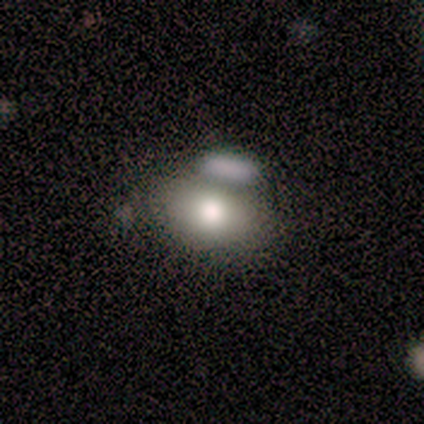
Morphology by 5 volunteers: A smooth galaxy with no disk features (60%) that is in between round and cigar-shaped (100%).

Vote fractions:
- Smooth or featured? smooth: 60% / featured or disk: 40% / star or artifact: 0%
- How rounded? in between: 100% / round: 0% / cigar-shaped: 0%
- Merging? none: 80% / merger: 20% / minor disturbance: 0% / major disturbance: 0%